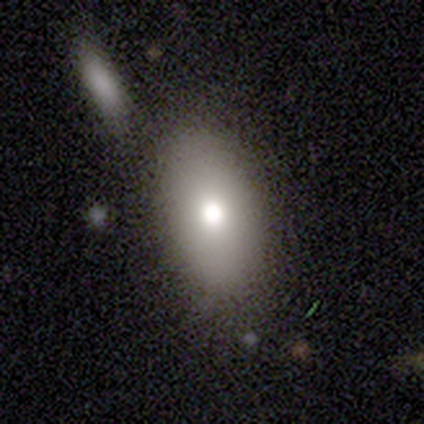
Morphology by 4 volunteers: type=featured or disk (50%); edge-on=yes (50%, tied with no); edge-on bulge=rounded (100%); merging=none (67%).